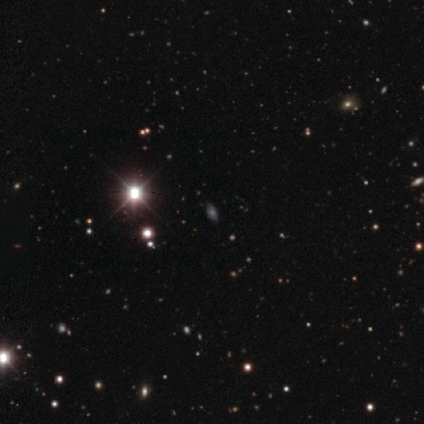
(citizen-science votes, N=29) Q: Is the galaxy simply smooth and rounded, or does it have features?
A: star or artifact — 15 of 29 (52%).